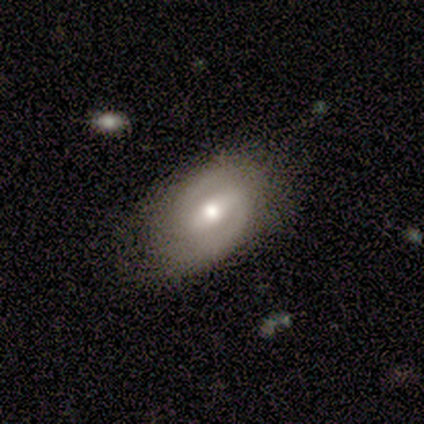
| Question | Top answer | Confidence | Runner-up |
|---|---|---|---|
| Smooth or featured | featured or disk | 80% | star or artifact (20%) |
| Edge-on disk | no | 100% | — |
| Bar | weak | 50% | strong (25%) |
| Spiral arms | yes | 75% | no (25%) |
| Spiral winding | medium | 100% | — |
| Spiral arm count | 2 | 67% | can't tell (33%) |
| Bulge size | moderate | 75% | small (25%) |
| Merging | none | 75% | minor disturbance (25%) |